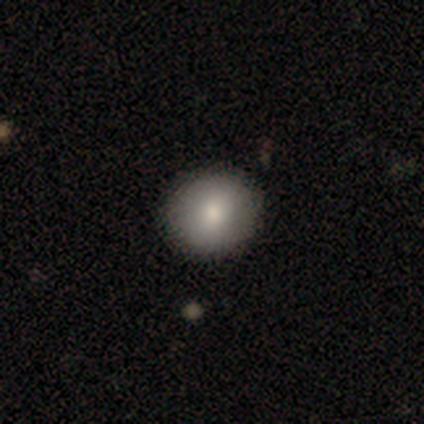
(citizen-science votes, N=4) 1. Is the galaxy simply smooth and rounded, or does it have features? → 100% smooth, 0% featured or disk, 0% star or artifact.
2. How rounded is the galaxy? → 75% round, 25% in between, 0% cigar-shaped.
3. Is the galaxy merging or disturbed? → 100% none, 0% minor disturbance, 0% major disturbance, 0% merger.